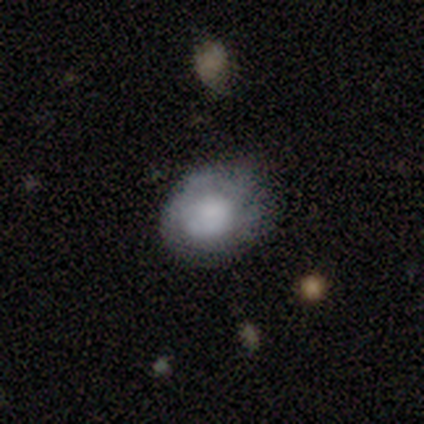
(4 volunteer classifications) smooth_or_featured: smooth (p=0.75) [alt: featured or disk p=0.25]
how_rounded: round (p=1.00)
merging: none (p=0.50) [tied with: minor disturbance p=0.50]